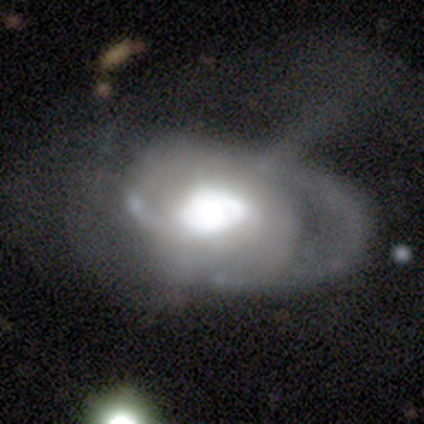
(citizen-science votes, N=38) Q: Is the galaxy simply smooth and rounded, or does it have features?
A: featured or disk — 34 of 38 (89%).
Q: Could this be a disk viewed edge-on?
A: no — 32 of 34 (94%).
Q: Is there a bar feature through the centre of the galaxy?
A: no — 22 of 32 (69%).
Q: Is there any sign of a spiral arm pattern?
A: yes — 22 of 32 (69%).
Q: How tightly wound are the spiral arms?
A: tight — 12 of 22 (55%).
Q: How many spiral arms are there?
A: can't tell — 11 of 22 (50%).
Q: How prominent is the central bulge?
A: large — 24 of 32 (75%).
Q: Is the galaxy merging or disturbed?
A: major disturbance — 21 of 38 (55%).